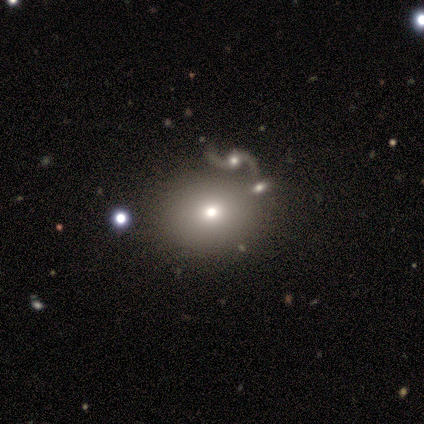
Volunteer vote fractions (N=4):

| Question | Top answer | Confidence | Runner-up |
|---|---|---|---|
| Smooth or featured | smooth | 50% | featured or disk (25%) |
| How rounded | round | 50% | tied: in between (50%) |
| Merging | none | 100% | — |